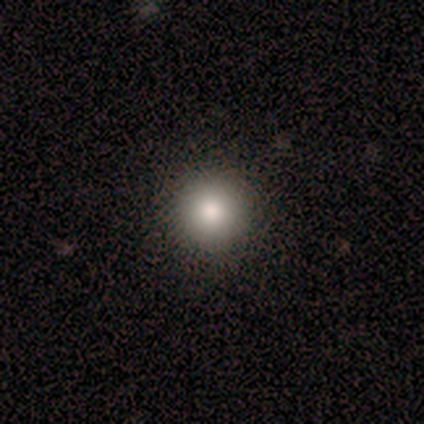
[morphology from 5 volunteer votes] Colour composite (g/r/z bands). It shows a smooth galaxy with no disk features (80%) that is round (100%). Merging: none (100%).